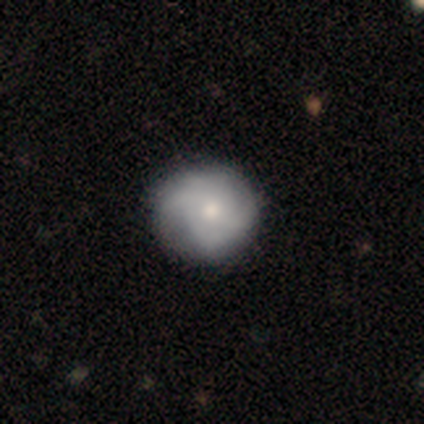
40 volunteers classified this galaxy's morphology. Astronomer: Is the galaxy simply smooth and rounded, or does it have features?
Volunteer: featured or disk — 52% (runner-up: smooth, 45%).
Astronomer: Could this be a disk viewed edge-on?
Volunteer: no — 100%.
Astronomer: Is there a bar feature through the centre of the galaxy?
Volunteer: no — 86%.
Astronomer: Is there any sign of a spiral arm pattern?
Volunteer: yes — 86%.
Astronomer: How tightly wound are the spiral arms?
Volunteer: tight — 44%, tied with medium at 44%.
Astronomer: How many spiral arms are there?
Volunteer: can't tell — 33% (runner-up: 2, 28%).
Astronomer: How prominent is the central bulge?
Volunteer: moderate — 52% (runner-up: small, 29%).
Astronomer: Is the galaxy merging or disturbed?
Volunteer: none — 54%.